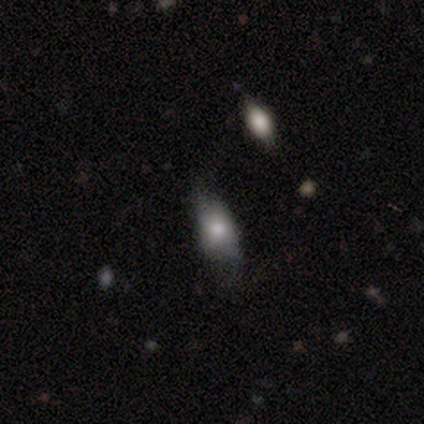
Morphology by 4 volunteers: smooth-or-featured: smooth: 50% | featured or disk: 25% | star or artifact: 25%
  how-rounded: in between: 100% | round: 0% | cigar-shaped: 0%
  merging: none: 67% | minor disturbance: 33% | major disturbance: 0% | merger: 0%